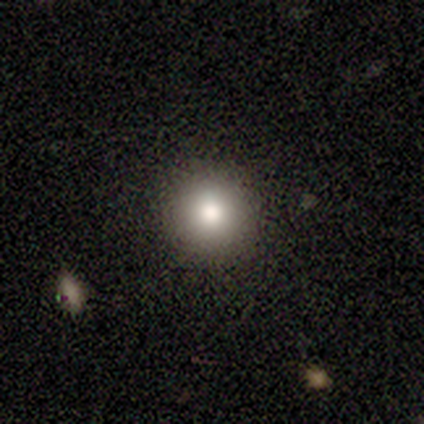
Smooth or featured: smooth — 100%
How rounded: round — 100%
Merging: none — 100%